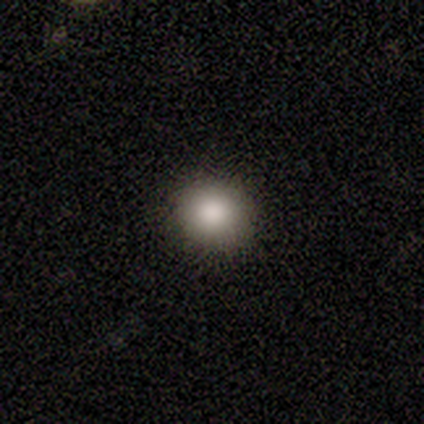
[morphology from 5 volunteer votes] smooth 60%, star or artifact 40%, featured or disk 0%. Down the decision tree: how rounded — round (100%); merging — none (100%).